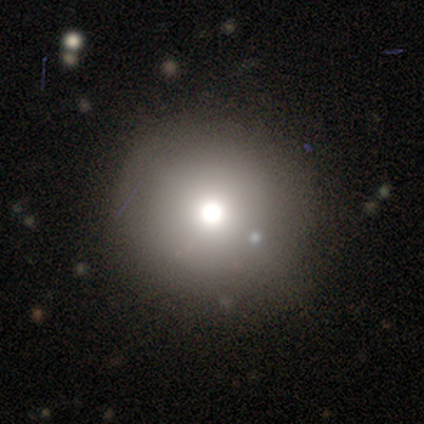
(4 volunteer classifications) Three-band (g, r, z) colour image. It shows a smooth galaxy with no disk features (75%) that is round (100%). Merging: none (100%).